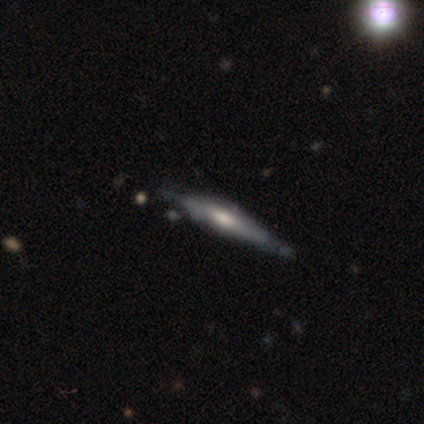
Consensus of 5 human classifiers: Overall: featured or disk (60%; smooth 40%). Edge-on disk: yes (100%). Edge-on bulge: boxy (33%, tied with none and rounded). Merging: none (80%).